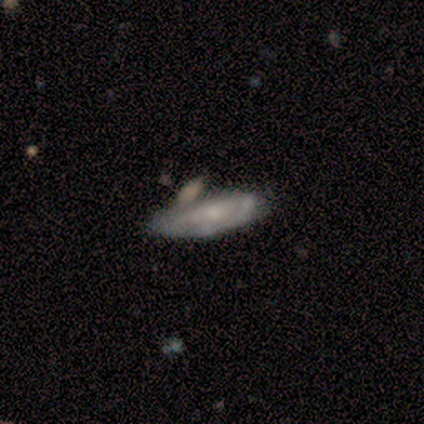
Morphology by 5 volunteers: This is likely a smooth galaxy (60%). How rounded: likely in between (67%). Merging: marginally minor disturbance (40%, tied with merger).